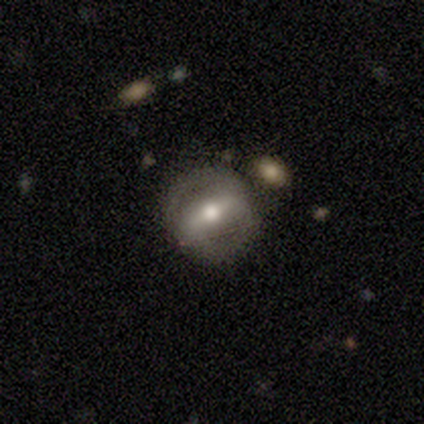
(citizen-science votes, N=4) featured or disk 75%, smooth 25%, star or artifact 0%. Down the decision tree: edge-on disk — no (100%); bar — strong (67%); spiral arms — yes (100%); spiral arm count — 2 (100%); spiral winding — medium (67%); bulge size — moderate (67%); merging — none (100%).